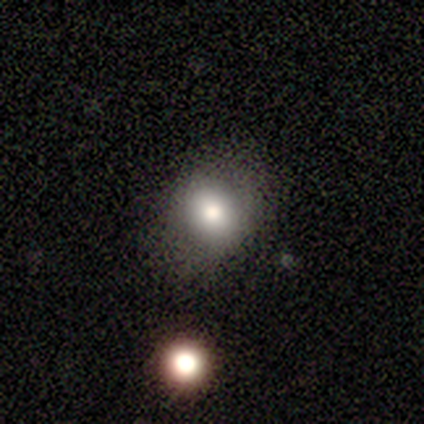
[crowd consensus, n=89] smooth_or_featured: smooth (p=0.76) [alt: star or artifact p=0.15]
how_rounded: round (p=0.60) [alt: in between p=0.40]
merging: none (p=0.78) [alt: minor disturbance p=0.11]